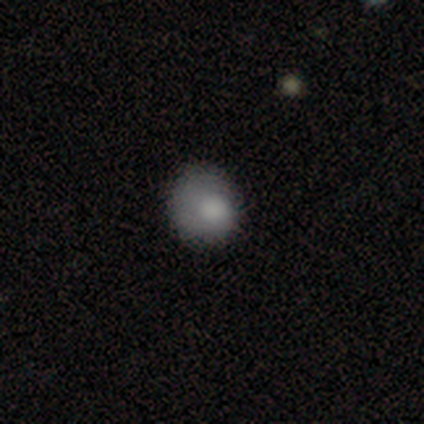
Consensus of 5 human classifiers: This appears to be a smooth galaxy with no disk features (60%) that is round (67%). Merging: minor disturbance (50%).